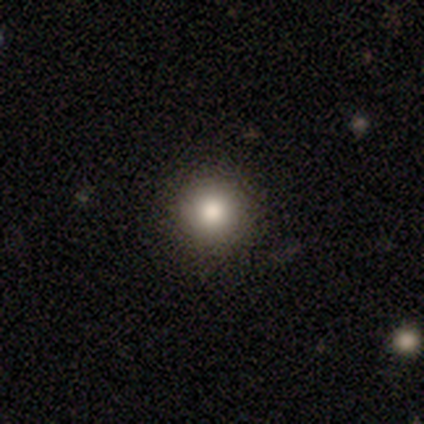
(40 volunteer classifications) smooth 70%, star or artifact 20%, featured or disk 10%. Down the decision tree: how rounded — round (93%); merging — none (94%).